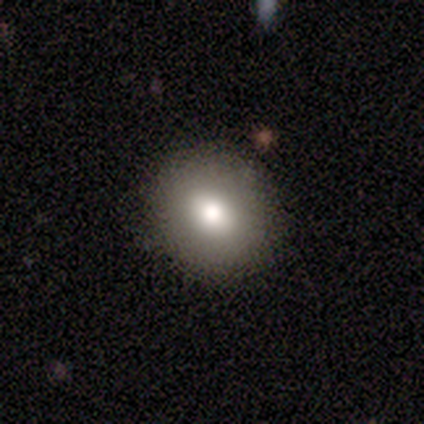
Smooth or featured?
  - smooth: 86% *
  - featured or disk: 14%
  - star or artifact: 0%
How rounded?
  - round: 50% * (tied)
  - in between: 50% * (tied)
  - cigar-shaped: 0%
Merging?
  - none: 71% *
  - minor disturbance: 29%
  - major disturbance: 0%
  - merger: 0%